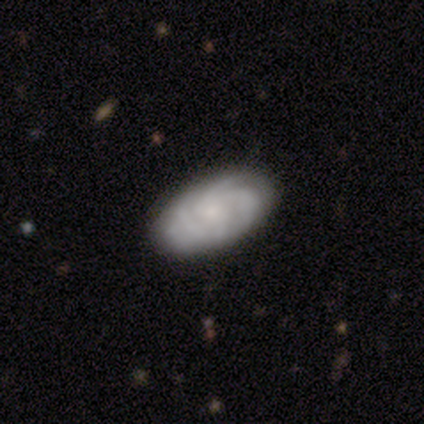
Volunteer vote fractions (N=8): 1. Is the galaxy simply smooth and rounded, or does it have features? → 75% featured or disk, 25% smooth, 0% star or artifact.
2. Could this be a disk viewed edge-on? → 100% no, 0% yes.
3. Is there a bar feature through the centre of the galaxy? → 83% no, 17% weak, 0% strong.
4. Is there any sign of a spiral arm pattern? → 100% yes, 0% no.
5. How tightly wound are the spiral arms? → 83% tight, 17% medium, 0% loose.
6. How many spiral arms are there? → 33% 3 (tied), 33% 4 (tied), 33% can't tell (tied), 0% 1, 0% 2, 0% more than 4.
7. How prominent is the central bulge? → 50% none, 33% small, 17% moderate, 0% dominant, 0% large.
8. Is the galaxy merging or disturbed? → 62% none, 38% minor disturbance, 0% major disturbance, 0% merger.